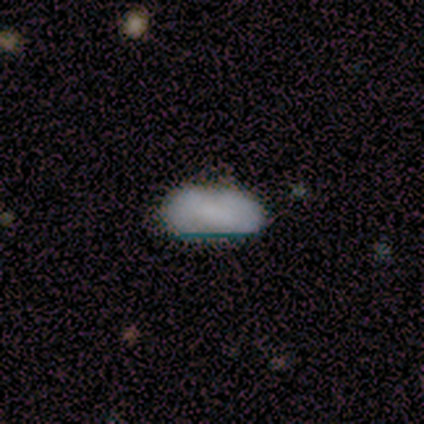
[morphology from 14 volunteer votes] Smooth or featured?
  - smooth: 43% * (tied)
  - featured or disk: 43% * (tied)
  - star or artifact: 14%
How rounded?
  - in between: 100% *
  - round: 0%
  - cigar-shaped: 0%
Merging?
  - none: 75% *
  - minor disturbance: 17%
  - major disturbance: 8%
  - merger: 0%